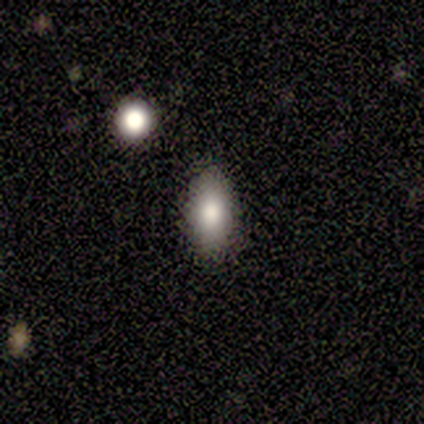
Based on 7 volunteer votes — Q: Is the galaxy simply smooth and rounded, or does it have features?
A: smooth — 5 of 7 (71%).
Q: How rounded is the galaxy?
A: in between — 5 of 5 (100%).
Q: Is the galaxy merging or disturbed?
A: none — 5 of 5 (100%).